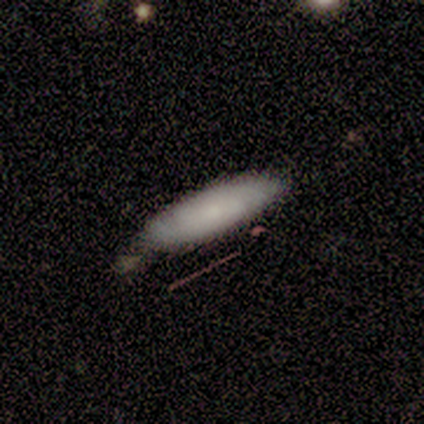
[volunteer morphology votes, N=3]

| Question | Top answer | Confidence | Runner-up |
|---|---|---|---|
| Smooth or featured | smooth | 67% | featured or disk (33%) |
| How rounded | cigar-shaped | 100% | — |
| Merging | none | 67% | major disturbance (33%) |